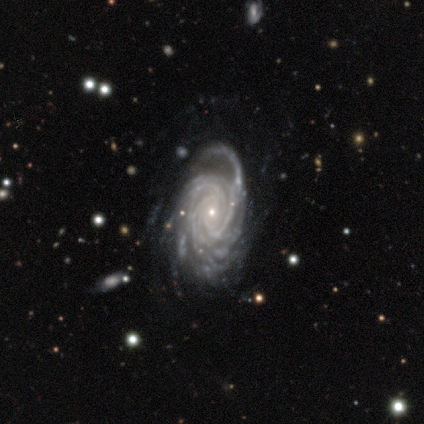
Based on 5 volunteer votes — A featured or disk galaxy (100%) with no bar (80%), 3 (40%, tied with more than 4) tight (80%) spiral arms (100%) and a small central bulge (100%). Merging: none (80%).